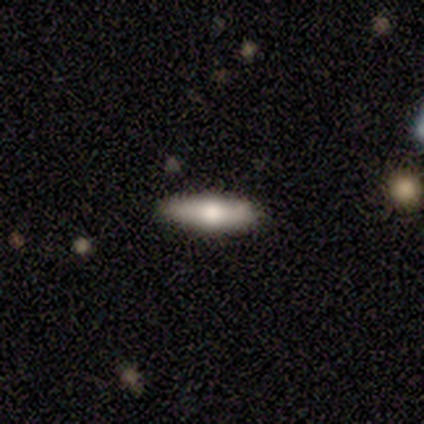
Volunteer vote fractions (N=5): Smooth or featured?
  - smooth: 60% *
  - featured or disk: 40%
  - star or artifact: 0%
How rounded?
  - in between: 67% *
  - cigar-shaped: 33%
  - round: 0%
Merging?
  - none: 100% *
  - minor disturbance: 0%
  - major disturbance: 0%
  - merger: 0%